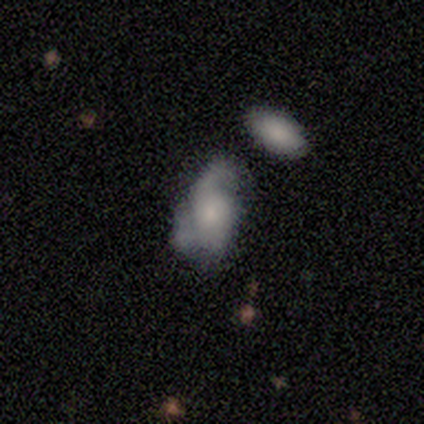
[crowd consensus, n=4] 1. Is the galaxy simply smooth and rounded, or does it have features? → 75% smooth, 25% featured or disk, 0% star or artifact.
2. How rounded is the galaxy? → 100% in between, 0% round, 0% cigar-shaped.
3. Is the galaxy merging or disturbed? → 50% minor disturbance, 25% major disturbance, 25% merger, 0% none.